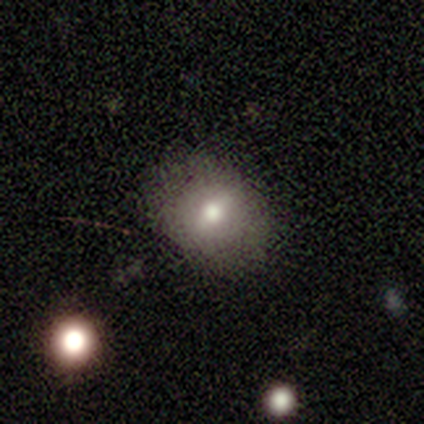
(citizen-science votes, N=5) smooth 100%, featured or disk 0%, star or artifact 0%. Down the decision tree: how rounded — in between (100%); merging — none (100%).